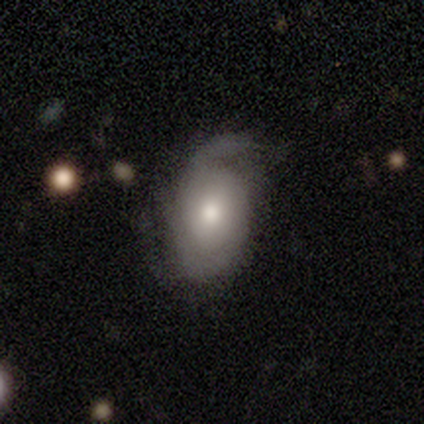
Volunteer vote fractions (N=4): Smooth or featured? 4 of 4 (100%) said featured or disk. Edge-on disk? 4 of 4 (100%) said no. Bar? 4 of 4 (100%) said no. Spiral arms? 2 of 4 (50%, tied with no) said yes. Spiral winding? 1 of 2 (50%, tied with loose) said medium. Spiral arm count? 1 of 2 (50%, tied with 3) said 2. Bulge size? 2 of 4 (50%) said moderate. Merging? 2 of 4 (50%, tied with minor disturbance) said none.